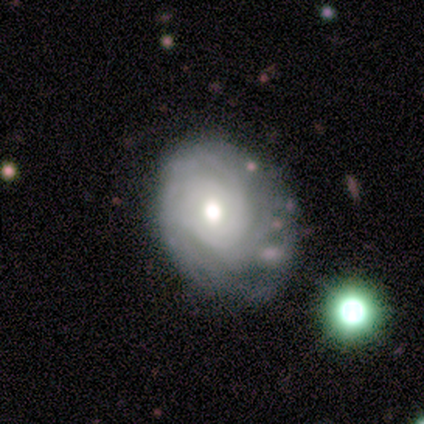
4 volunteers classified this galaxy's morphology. A featured or disk galaxy (75%) with no bar (100%), tight (33%, tied with medium and loose) spiral arms (100%) and a moderate central bulge (100%). Merging: none (75%).